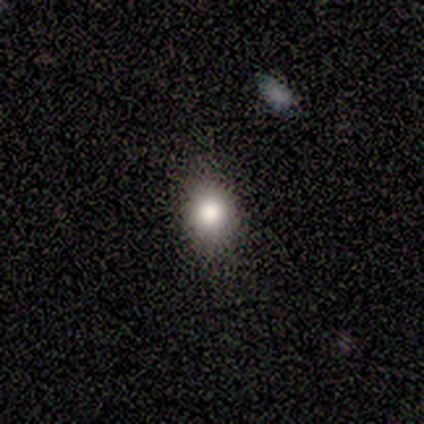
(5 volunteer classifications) Morphology: type=smooth (80%); roundness=round (75%); merging=none (100%).